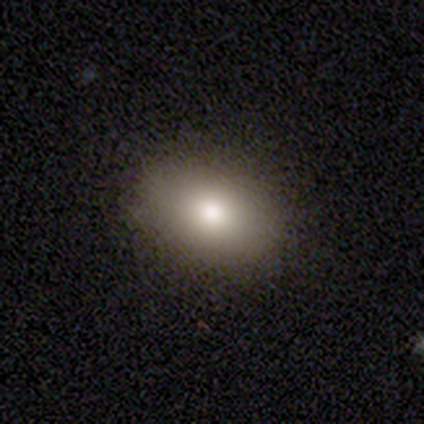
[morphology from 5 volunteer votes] Smooth or featured? smooth (100%)
How rounded? in between (80%)
Merging? none (100%)